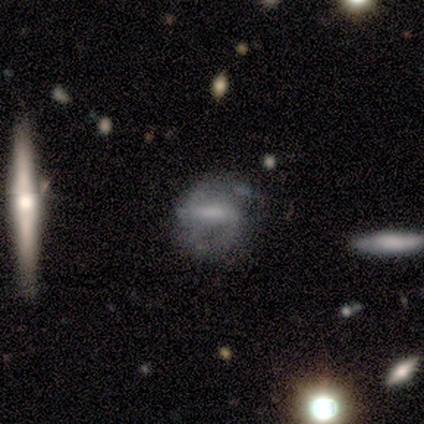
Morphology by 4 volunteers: Smooth or featured?
  - featured or disk: 50% *
  - smooth: 25%
  - star or artifact: 25%
Edge-on disk?
  - no: 100% *
  - yes: 0%
Bar?
  - strong: 50% * (tied)
  - weak: 50% * (tied)
  - no: 0%
Spiral arms?
  - yes: 50% * (tied)
  - no: 50% * (tied)
Spiral winding?
  - tight: 100% *
  - medium: 0%
  - loose: 0%
Spiral arm count?
  - 2: 100% *
  - 1: 0%
  - 3: 0%
  - 4: 0%
  - more than 4: 0%
  - can't tell: 0%
Bulge size?
  - moderate: 100% *
  - dominant: 0%
  - large: 0%
  - small: 0%
  - none: 0%
Merging?
  - minor disturbance: 67% *
  - none: 33%
  - major disturbance: 0%
  - merger: 0%